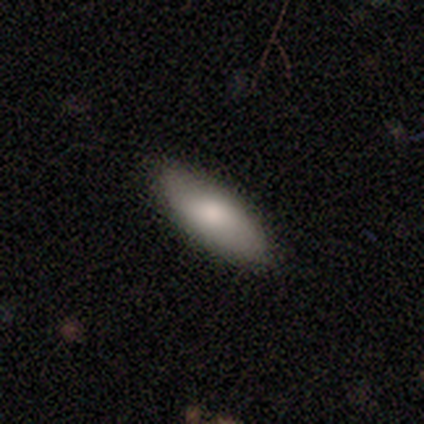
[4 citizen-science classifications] Smooth or featured: smooth — 50% (tied with featured or disk — 50%)
How rounded: cigar-shaped — 100%
Merging: none — 100%